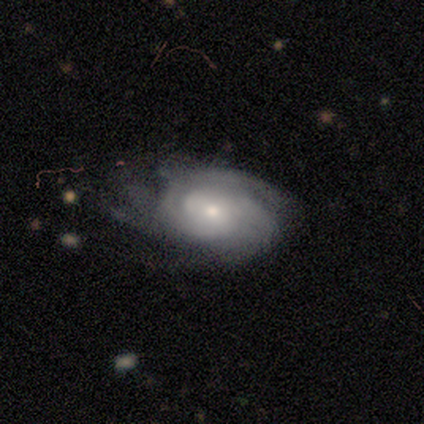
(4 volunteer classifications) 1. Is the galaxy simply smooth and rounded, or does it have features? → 100% featured or disk, 0% smooth, 0% star or artifact.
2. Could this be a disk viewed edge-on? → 100% no, 0% yes.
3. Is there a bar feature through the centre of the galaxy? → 75% no, 25% strong, 0% weak.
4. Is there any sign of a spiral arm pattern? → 100% yes, 0% no.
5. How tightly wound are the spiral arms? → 75% tight, 25% medium, 0% loose.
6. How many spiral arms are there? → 75% can't tell, 25% 4, 0% 1, 0% 2, 0% 3, 0% more than 4.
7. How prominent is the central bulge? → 50% moderate (tied), 50% small (tied), 0% dominant, 0% large, 0% none.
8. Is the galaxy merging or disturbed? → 75% none, 25% major disturbance, 0% minor disturbance, 0% merger.